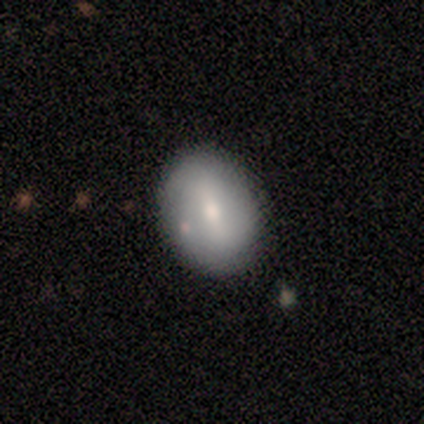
smooth_or_featured: smooth (p=0.60) [alt: featured or disk p=0.40]
how_rounded: round (p=0.33) [tied with: in between p=0.33, cigar-shaped p=0.33]
merging: none (p=0.80) [alt: minor disturbance p=0.20]